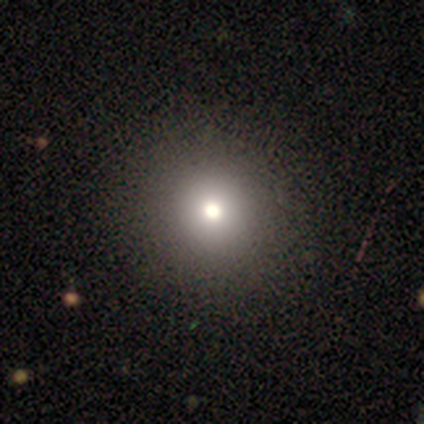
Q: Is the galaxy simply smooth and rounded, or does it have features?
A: smooth — 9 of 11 (82%).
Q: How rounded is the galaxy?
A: round — 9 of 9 (100%).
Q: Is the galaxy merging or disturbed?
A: none — 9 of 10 (90%).